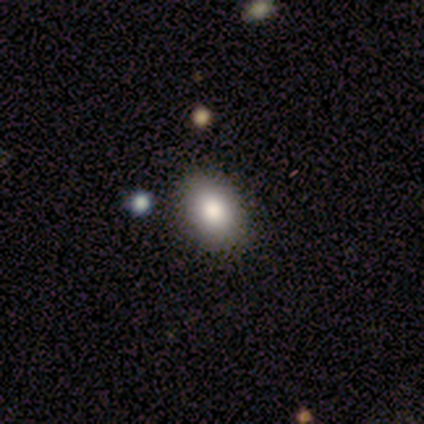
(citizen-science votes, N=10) Smooth or featured?
  - smooth: 70% *
  - featured or disk: 30%
  - star or artifact: 0%
How rounded?
  - in between: 100% *
  - round: 0%
  - cigar-shaped: 0%
Merging?
  - none: 70% *
  - minor disturbance: 30%
  - major disturbance: 0%
  - merger: 0%